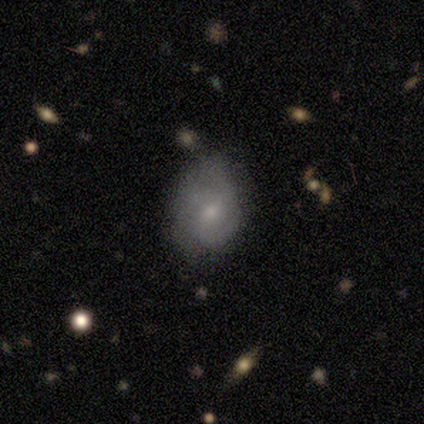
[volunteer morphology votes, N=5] smooth-or-featured: featured or disk: 60% | smooth: 40% | star or artifact: 0%
  disk-edge-on: no: 100% | yes: 0%
    bar: no: 67% | weak: 33% | strong: 0%
    has-spiral-arms: yes: 100% | no: 0%
      spiral-winding: medium: 67% | loose: 33% | tight: 0%
      spiral-arm-count: 1: 33% (tied) | 2: 33% (tied) | 3: 33% (tied) | 4: 0% | more than 4: 0% | can't tell: 0%
    bulge-size: moderate: 67% | small: 33% | dominant: 0% | large: 0% | none: 0%
  merging: none: 80% | minor disturbance: 20% | major disturbance: 0% | merger: 0%